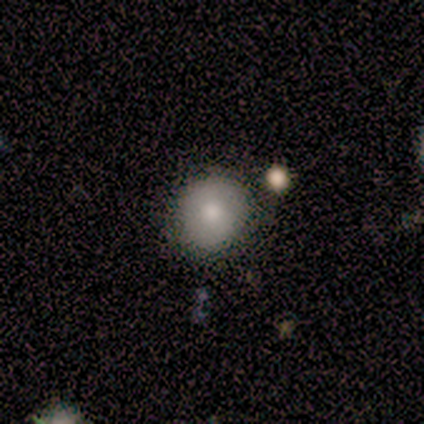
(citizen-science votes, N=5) smooth-or-featured: smooth: 80% | star or artifact: 20% | featured or disk: 0%
  how-rounded: round: 75% | in between: 25% | cigar-shaped: 0%
  merging: none: 75% | minor disturbance: 25% | major disturbance: 0% | merger: 0%